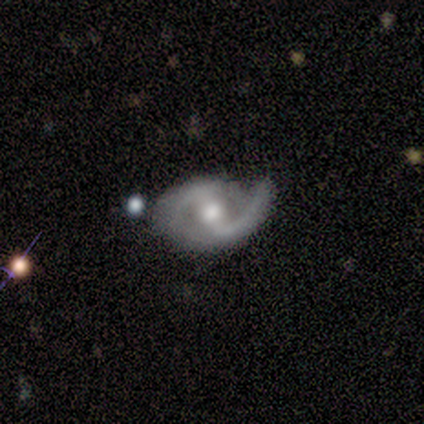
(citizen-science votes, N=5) A featured or disk galaxy (100%) with a weak bar (80%), 2 (60%) loose (60%) spiral arms (100%) and a moderate central bulge (60%). Merging: none (60%).